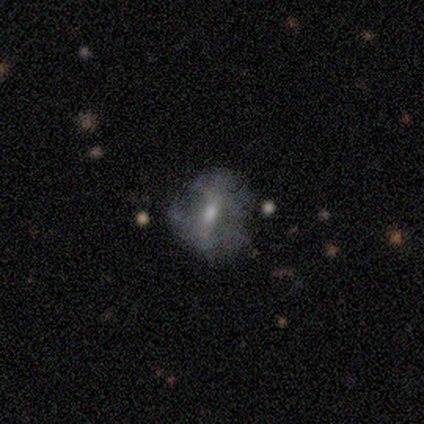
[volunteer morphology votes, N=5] featured or disk 60%, smooth 40%, star or artifact 0%. Down the decision tree: edge-on disk — no (100%); bar — weak (67%); spiral arms — no (100%); bulge size — moderate (67%); merging — none (60%).